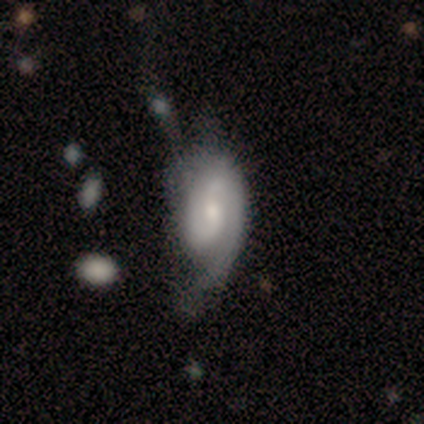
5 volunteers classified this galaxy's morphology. featured or disk 80%, smooth 20%, star or artifact 0%. Down the decision tree: edge-on disk — no (100%); bar — weak (50%, tied with no); spiral arms — yes (100%); spiral arm count — 1 (50%); spiral winding — medium (50%); bulge size — small (75%); merging — minor disturbance (60%).